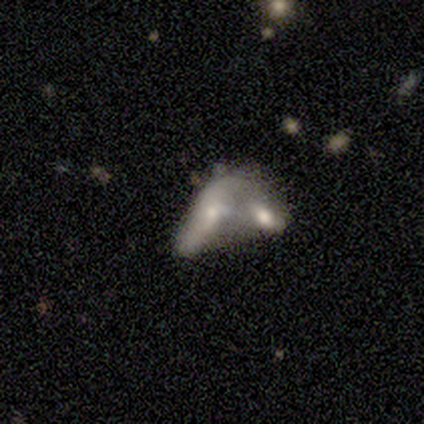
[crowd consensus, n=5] Smooth or featured: featured or disk — 100%
Edge-on disk: no — 100%
Bar: no — 80% (weak — 20%)
Spiral arms: no — 80% (yes — 20%)
Bulge size: moderate — 40% (dominant — 20%)
Merging: merger — 80% (major disturbance — 20%)